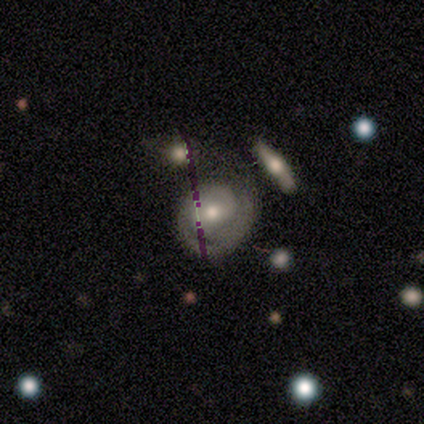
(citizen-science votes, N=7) Smooth or featured? 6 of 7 (86%) said featured or disk. Edge-on disk? 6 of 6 (100%) said no. Bar? 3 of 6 (50%, tied with no) said weak. Spiral arms? 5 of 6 (83%) said yes. Spiral winding? 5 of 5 (100%) said tight. Spiral arm count? 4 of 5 (80%) said 1. Bulge size? 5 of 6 (83%) said moderate. Merging? 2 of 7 (29%, tied with major disturbance and merger) said none.